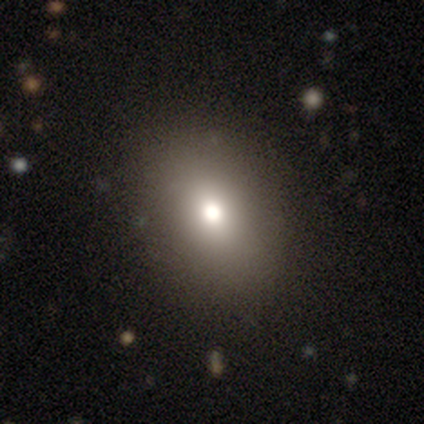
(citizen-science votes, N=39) This appears to be a smooth galaxy with no disk features (54%) that is in between round and cigar-shaped (67%). Merging: none (83%).